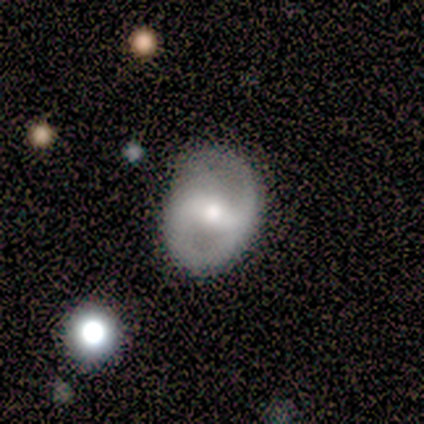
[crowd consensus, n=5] Smooth or featured: featured or disk — 80% (smooth — 20%)
Edge-on disk: no — 75% (yes — 25%)
Bar: strong — 33% (tied with weak — 33%; no — 33%)
Spiral arms: yes — 100%
Spiral winding: medium — 67% (loose — 33%)
Spiral arm count: 2 — 33% (tied with 3 — 33%; can't tell — 33%)
Bulge size: moderate — 67% (large — 33%)
Merging: none — 40% (tied with minor disturbance — 40%)